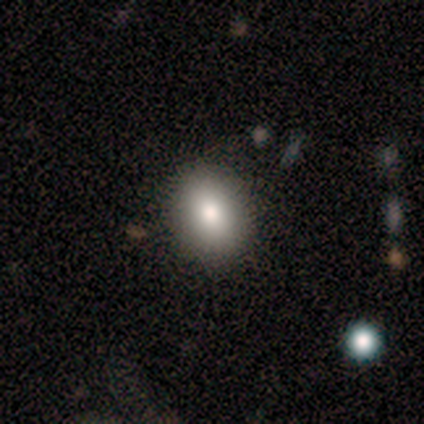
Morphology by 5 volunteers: Smooth or featured: smooth — 80% (featured or disk — 20%)
How rounded: in between — 75% (round — 25%)
Merging: none — 100%